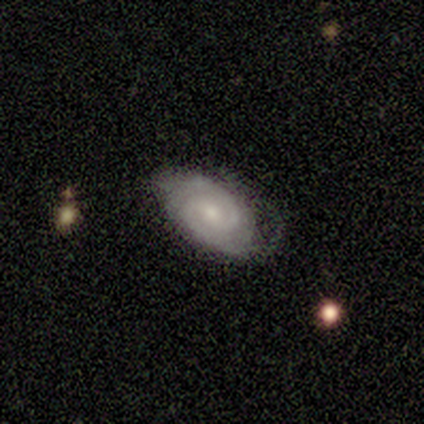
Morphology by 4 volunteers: Smooth or featured?
  - smooth: 50% * (tied)
  - featured or disk: 50% * (tied)
  - star or artifact: 0%
How rounded?
  - round: 50% * (tied)
  - in between: 50% * (tied)
  - cigar-shaped: 0%
Merging?
  - none: 100% *
  - minor disturbance: 0%
  - major disturbance: 0%
  - merger: 0%